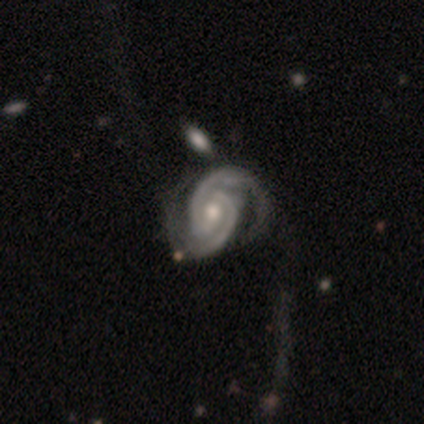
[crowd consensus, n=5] A featured or disk galaxy (100%) with no bar (60%), 2 (80%) tight (40%, tied with medium) spiral arms (100%) and a moderate central bulge (80%). Merging: major disturbance (60%).